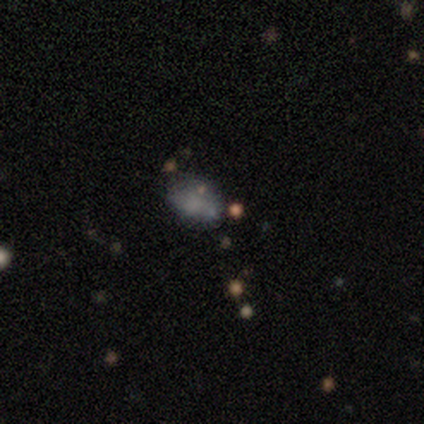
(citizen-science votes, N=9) This appears to be a featured or disk galaxy (44%) with no bar (100%), no spiral arms (100%) and no central bulge (75%). Merging: none (71%).